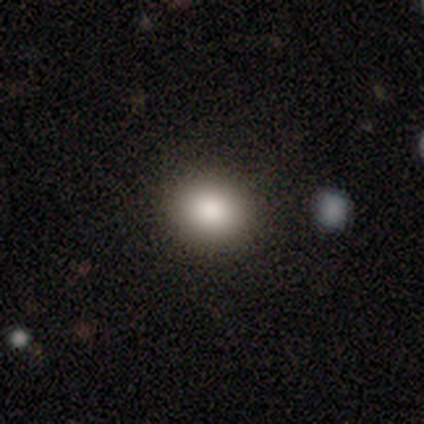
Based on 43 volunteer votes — Overall: smooth (93%). How rounded: round (75%). Merging: none (80%).